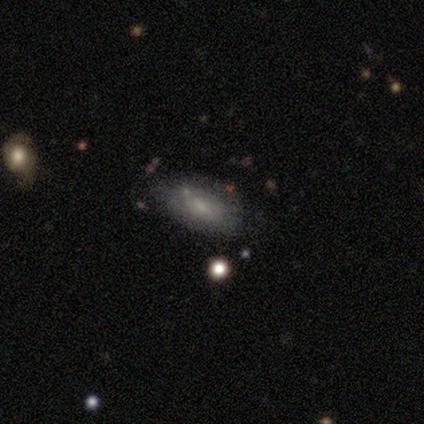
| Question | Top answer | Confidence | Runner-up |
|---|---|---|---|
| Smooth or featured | star or artifact | 60% | smooth (40%) |